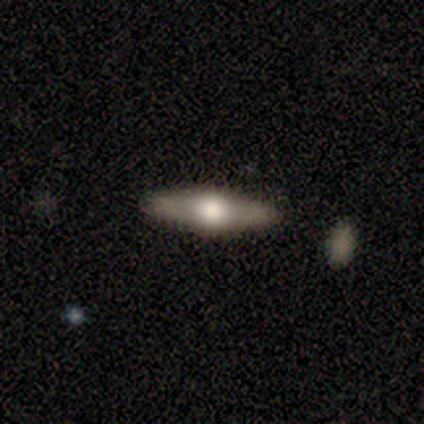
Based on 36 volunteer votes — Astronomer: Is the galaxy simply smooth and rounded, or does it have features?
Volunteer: featured or disk — 72%.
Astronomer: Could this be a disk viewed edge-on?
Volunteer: yes — 92%.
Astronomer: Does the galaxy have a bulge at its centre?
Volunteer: rounded — 96%.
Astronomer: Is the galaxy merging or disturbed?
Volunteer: none — 97%.